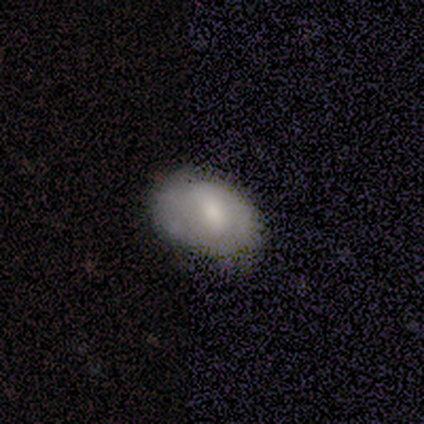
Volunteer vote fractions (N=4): smooth-or-featured: smooth: 75% | featured or disk: 25% | star or artifact: 0%
  how-rounded: in between: 67% | round: 33% | cigar-shaped: 0%
  merging: minor disturbance: 100% | none: 0% | major disturbance: 0% | merger: 0%